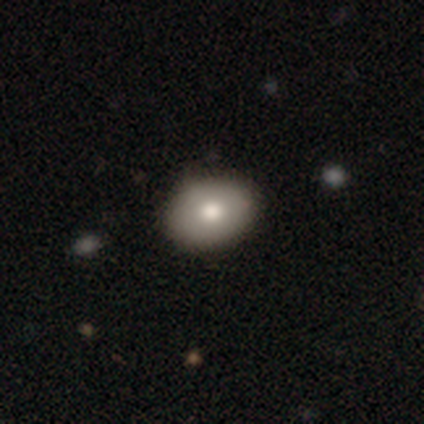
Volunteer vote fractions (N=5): Smooth or featured: smooth — 80% (featured or disk — 20%)
How rounded: in between — 100%
Merging: none — 80% (minor disturbance — 20%)